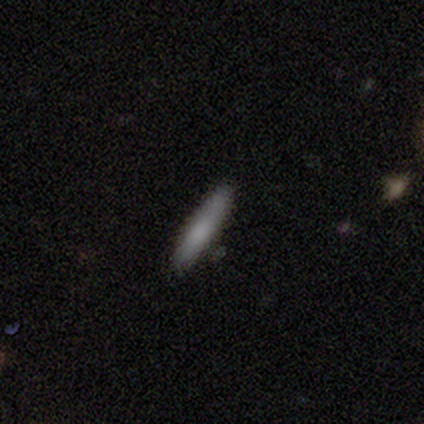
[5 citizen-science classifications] Smooth or featured? smooth (100%)
How rounded? cigar-shaped (100%)
Merging? none (100%)